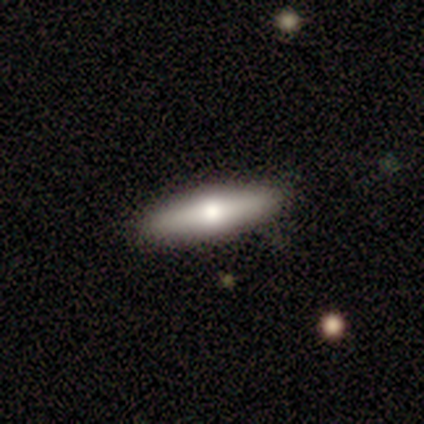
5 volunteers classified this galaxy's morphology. Overall: smooth (40%, tied with featured or disk). How rounded: cigar-shaped (100%). Merging: none (100%).